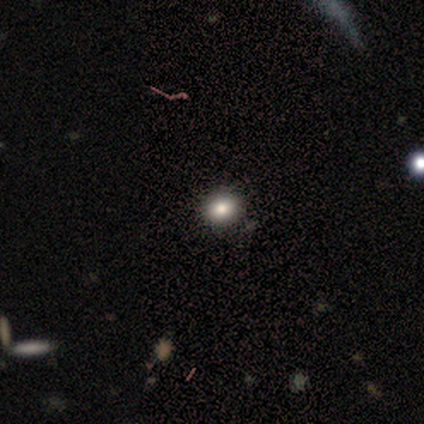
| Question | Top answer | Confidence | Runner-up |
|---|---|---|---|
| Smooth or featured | smooth | 71% | featured or disk (14%) |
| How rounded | round | 80% | in between (20%) |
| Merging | none | 100% | — |